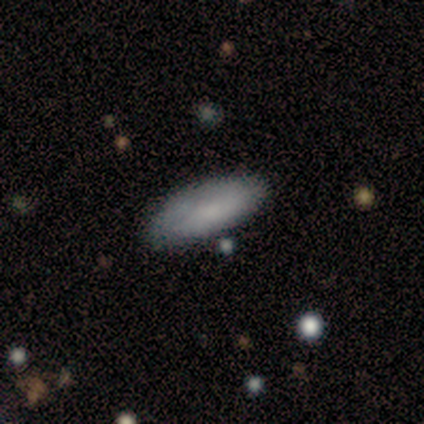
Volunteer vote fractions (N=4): Smooth or featured: smooth — 75% (featured or disk — 25%)
How rounded: in between — 100%
Merging: none — 50% (minor disturbance — 25%)